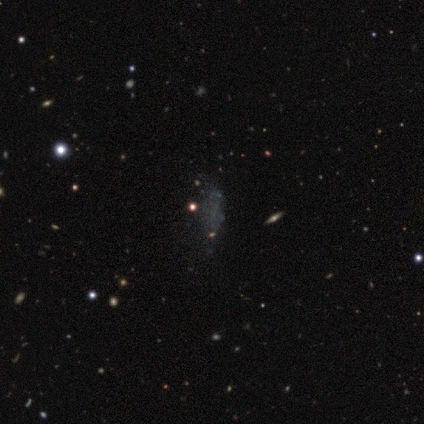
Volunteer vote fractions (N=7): A smooth galaxy with no disk features (57%) that is cigar-shaped (50%). Merging: none (86%).